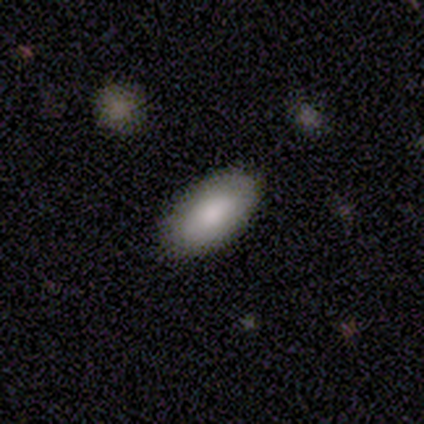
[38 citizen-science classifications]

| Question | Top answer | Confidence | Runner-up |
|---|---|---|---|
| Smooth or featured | smooth | 82% | star or artifact (11%) |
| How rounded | in between | 94% | cigar-shaped (6%) |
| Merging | none | 85% | minor disturbance (9%) |